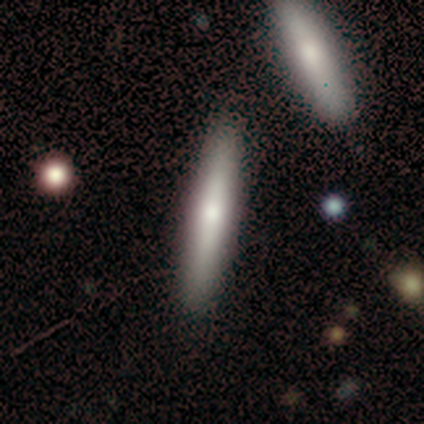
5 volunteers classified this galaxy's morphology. type=featured or disk (60%); edge-on=yes (100%); edge-on bulge=rounded (67%); merging=none (60%).